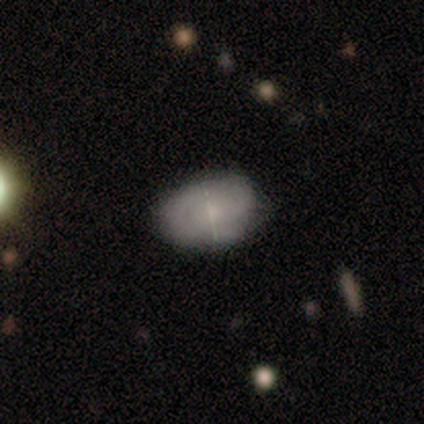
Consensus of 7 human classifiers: Smooth or featured? smooth (71%)
How rounded? in between (80%)
Merging? none (71%)